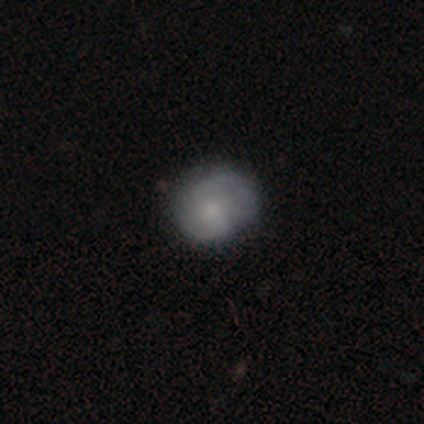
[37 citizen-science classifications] A smooth galaxy with no disk features (59%) that is round (64%). Merging: none (60%).